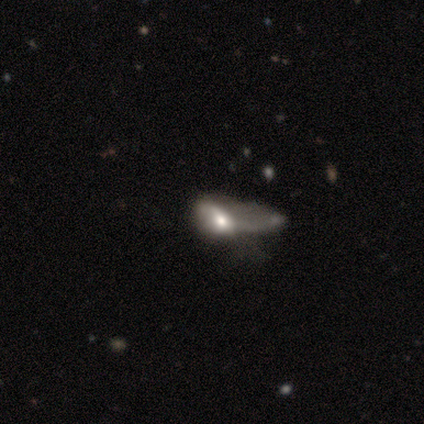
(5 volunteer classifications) smooth 40% (tied), featured or disk 40% (tied), star or artifact 20%. Down the decision tree: how rounded — in between (100%); merging — merger (100%).